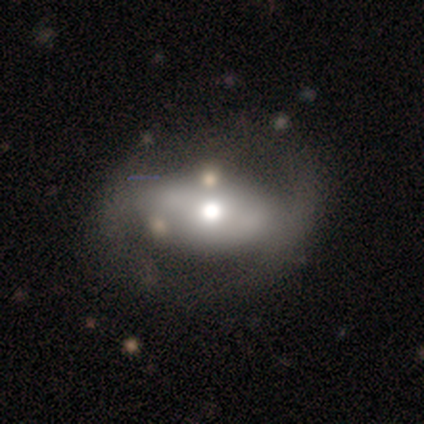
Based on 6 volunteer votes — Smooth or featured?
  - featured or disk: 67% *
  - smooth: 33%
  - star or artifact: 0%
Edge-on disk?
  - no: 100% *
  - yes: 0%
Bar?
  - strong: 50% * (tied)
  - no: 50% * (tied)
  - weak: 0%
Spiral arms?
  - no: 75% *
  - yes: 25%
Bulge size?
  - moderate: 50% *
  - large: 25%
  - small: 25%
  - dominant: 0%
  - none: 0%
Merging?
  - none: 67% *
  - minor disturbance: 17%
  - major disturbance: 17%
  - merger: 0%